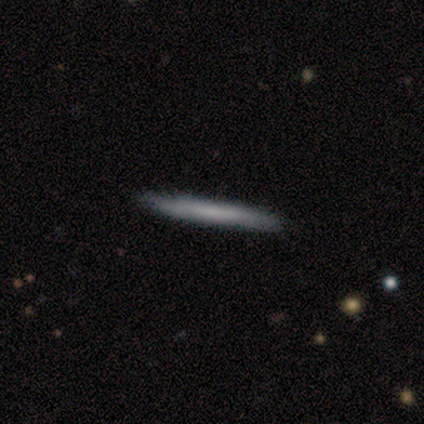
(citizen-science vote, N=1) This appears to be a featured or disk galaxy (100%) viewed edge-on (100%) with no central bulge (100%). Merging: none (100%).